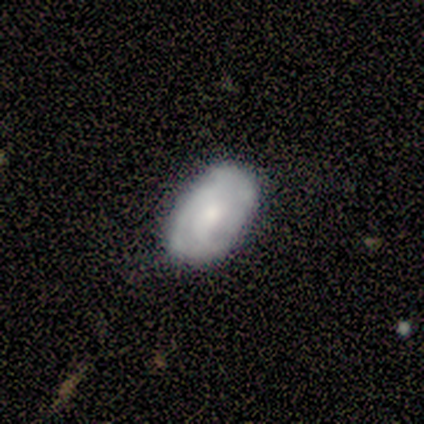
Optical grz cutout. It shows a smooth galaxy with no disk features (80%) that is in between round and cigar-shaped (100%). Merging: minor disturbance (60%).